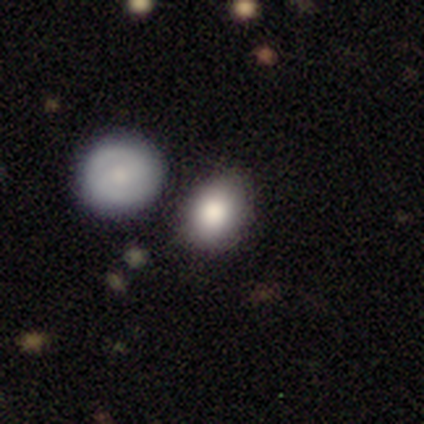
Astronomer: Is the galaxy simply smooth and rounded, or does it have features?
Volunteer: smooth — 84%.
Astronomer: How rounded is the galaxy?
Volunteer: round — 52% (runner-up: in between, 48%).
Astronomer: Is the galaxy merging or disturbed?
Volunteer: none — 78%.